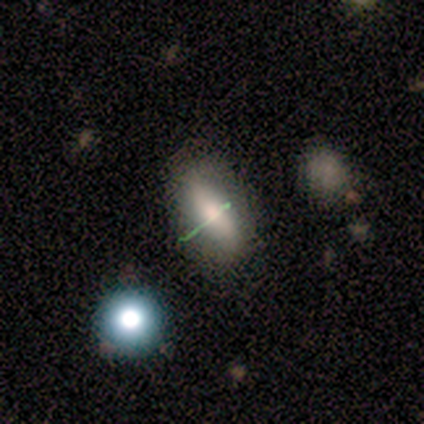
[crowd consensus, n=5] A smooth galaxy with no disk features (40%, tied with star or artifact) that is in between round and cigar-shaped (100%). Merging: none (67%).